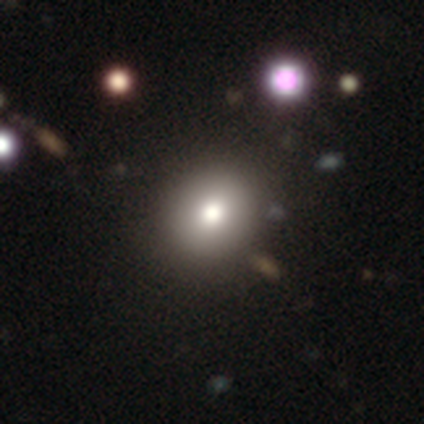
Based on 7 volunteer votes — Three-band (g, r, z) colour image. It shows a smooth galaxy with no disk features (86%) that is round (67%). Merging: none (67%).